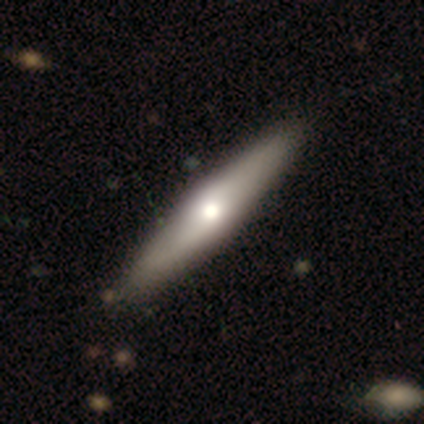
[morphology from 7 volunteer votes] A smooth galaxy with no disk features (57%) that is cigar-shaped (75%). Merging: none (71%).